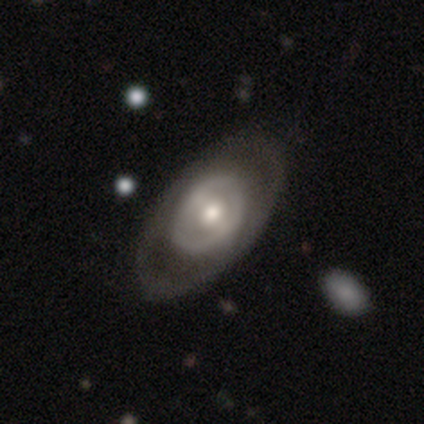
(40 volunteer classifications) This appears to be a featured or disk galaxy (88%) with no bar (58%), no spiral arms (76%) and a moderate central bulge (73%). Merging: none (85%).